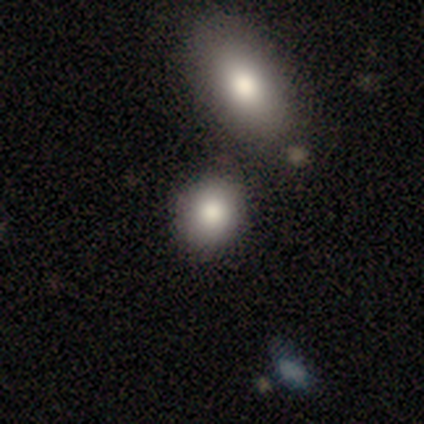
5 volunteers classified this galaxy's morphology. A smooth galaxy with no disk features (80%) that is round (50%, tied with in between).

Vote fractions:
- Smooth or featured? smooth: 80% / star or artifact: 20% / featured or disk: 0%
- How rounded? round: 50% (tied) / in between: 50% (tied) / cigar-shaped: 0%
- Merging? none: 100% / minor disturbance: 0% / major disturbance: 0% / merger: 0%